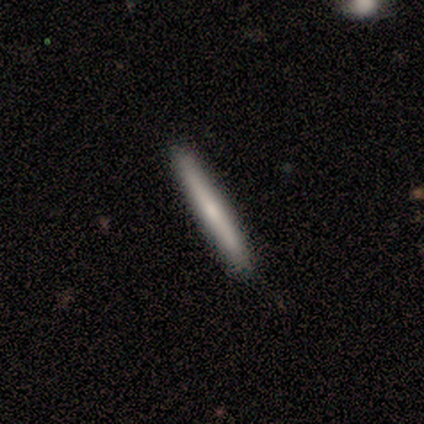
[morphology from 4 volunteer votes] Smooth or featured? 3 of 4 (75%) said smooth. How rounded? 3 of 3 (100%) said cigar-shaped. Merging? 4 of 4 (100%) said none.